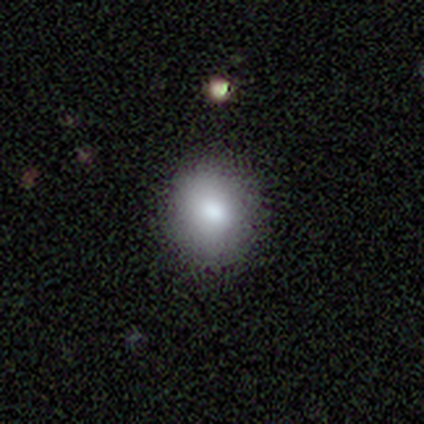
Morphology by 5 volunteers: A smooth galaxy with no disk features (100%) that is round (100%).

Vote fractions:
- Smooth or featured? smooth: 100% / featured or disk: 0% / star or artifact: 0%
- How rounded? round: 100% / in between: 0% / cigar-shaped: 0%
- Merging? none: 100% / minor disturbance: 0% / major disturbance: 0% / merger: 0%